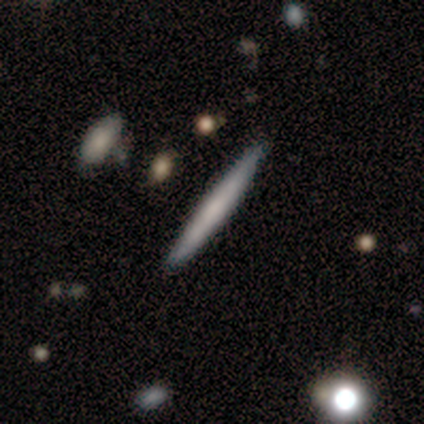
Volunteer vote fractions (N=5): This is clearly a smooth galaxy (80%). How rounded: clearly cigar-shaped (100%). Merging: clearly none (80%).